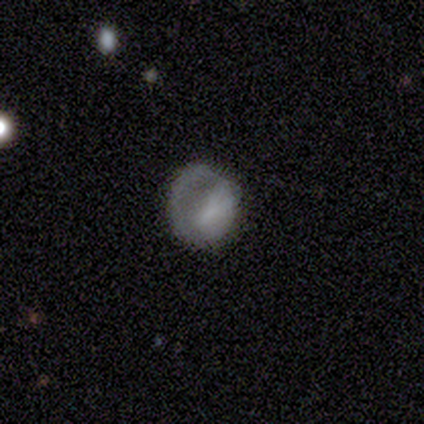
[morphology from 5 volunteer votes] This appears to be a smooth galaxy with no disk features (40%, tied with featured or disk) that is round (100%). Merging: major disturbance (50%).